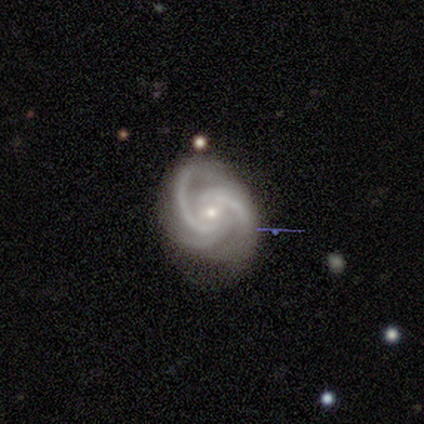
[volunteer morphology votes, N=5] Smooth or featured? 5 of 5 (100%) said featured or disk. Edge-on disk? 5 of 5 (100%) said no. Bar? 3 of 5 (60%) said no. Spiral arms? 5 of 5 (100%) said yes. Spiral winding? 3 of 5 (60%) said medium. Spiral arm count? 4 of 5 (80%) said 2. Bulge size? 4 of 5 (80%) said small. Merging? 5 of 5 (100%) said none.